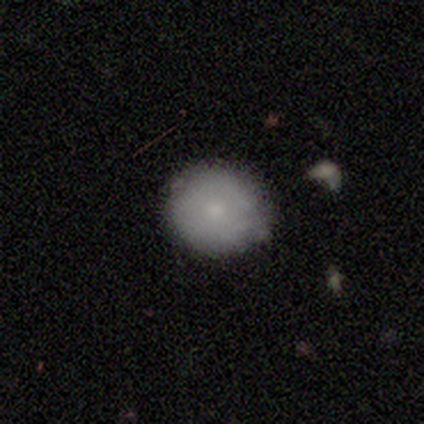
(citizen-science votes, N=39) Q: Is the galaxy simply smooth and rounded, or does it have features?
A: smooth — 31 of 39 (79%).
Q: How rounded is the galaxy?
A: round — 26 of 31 (84%).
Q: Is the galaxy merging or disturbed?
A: none — 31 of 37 (84%).